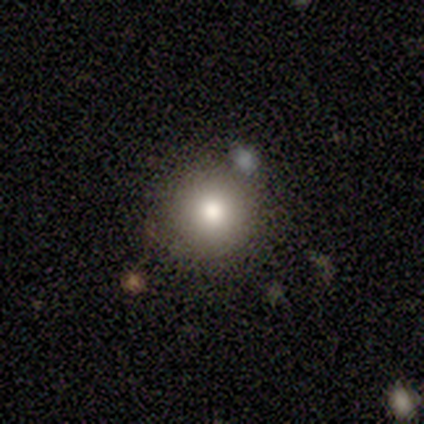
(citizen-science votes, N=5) This is likely a smooth galaxy (60%). How rounded: clearly round (100%). Merging: clearly none (80%).